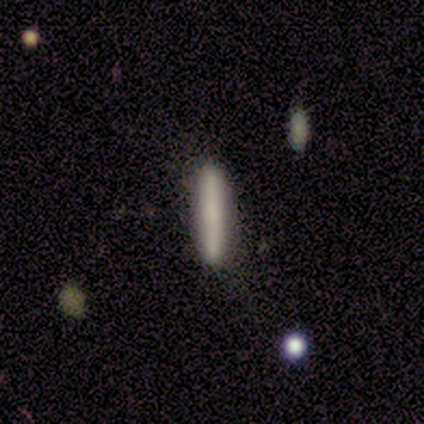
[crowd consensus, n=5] A smooth galaxy with no disk features (60%) that is cigar-shaped (100%). Merging: none (100%).